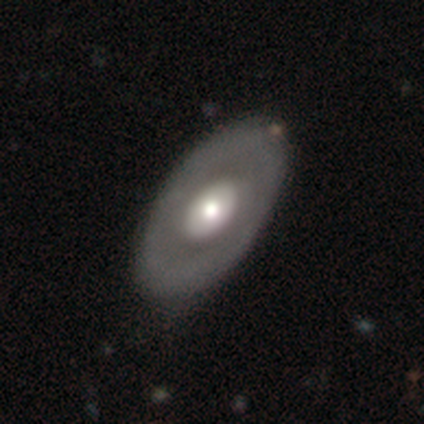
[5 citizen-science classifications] This is marginally a smooth galaxy (40%, tied with featured or disk). How rounded: possibly round (50%, tied with in between). Merging: clearly none (100%).